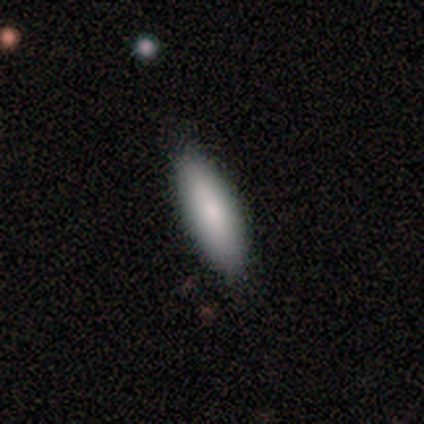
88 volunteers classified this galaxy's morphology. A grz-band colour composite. It shows a smooth galaxy with no disk features (85%) that is in between round and cigar-shaped (51%). Merging: none (88%).